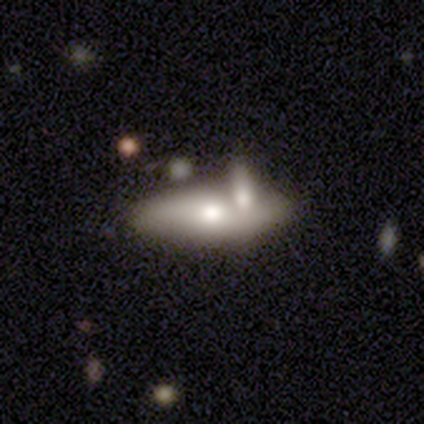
This is likely a smooth galaxy (62%). How rounded: likely in between (78%). Merging: marginally merger (42%).